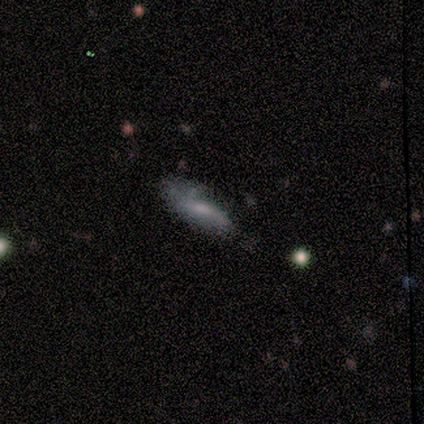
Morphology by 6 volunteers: type=featured or disk (50%); edge-on=no (67%); bar=strong (50%, tied with no); spiral arms=yes (50%, tied with no); winding=loose (100%); arm count=2 (100%); bulge=small (100%); merging=none (60%).